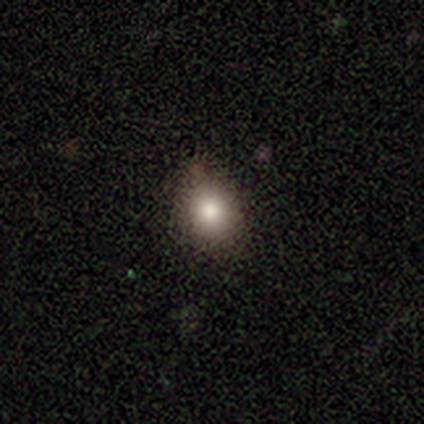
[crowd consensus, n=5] Smooth or featured? smooth (60%)
How rounded? round (67%)
Merging? none (67%)